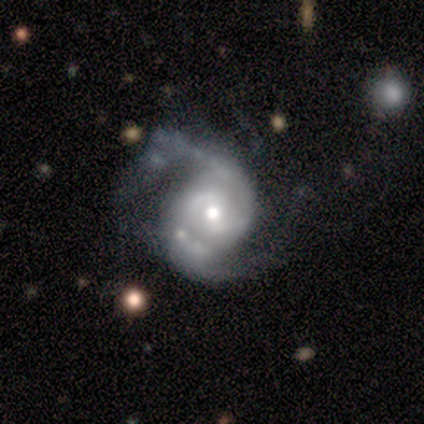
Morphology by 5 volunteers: featured or disk 100%, smooth 0%, star or artifact 0%. Down the decision tree: edge-on disk — no (100%); bar — weak (60%); spiral arms — yes (100%); spiral arm count — 2 (100%); spiral winding — tight (40%, tied with medium); bulge size — moderate (80%); merging — none (80%).